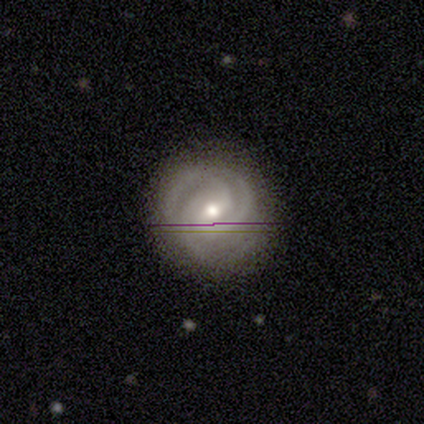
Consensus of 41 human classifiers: A featured or disk galaxy (83%) with a weak bar (58%), 3 (70%) tight (73%) spiral arms (100%) and a moderate central bulge (64%). Merging: none (94%).